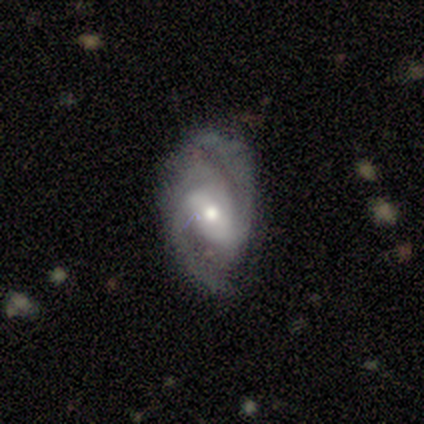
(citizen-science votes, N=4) Q: Smooth or featured?
A: featured or disk (100%)
Q: Edge-on disk?
A: no (100%)
Q: Bar?
A: strong (50%); tied with: weak (50%)
Q: Spiral arms?
A: yes (100%)
Q: Spiral winding?
A: tight (50%); runner-up: medium (25%)
Q: Spiral arm count?
A: 2 (75%); runner-up: 1 (25%)
Q: Bulge size?
A: moderate (75%); runner-up: small (25%)
Q: Merging?
A: none (50%); runner-up: minor disturbance (25%)